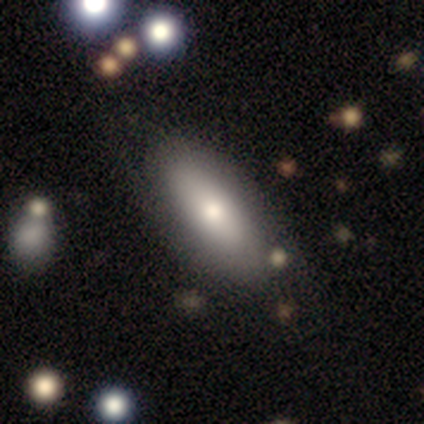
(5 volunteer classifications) Smooth or featured?
  - smooth: 60% *
  - featured or disk: 20%
  - star or artifact: 20%
How rounded?
  - in between: 67% *
  - cigar-shaped: 33%
  - round: 0%
Merging?
  - none: 75% *
  - minor disturbance: 25%
  - major disturbance: 0%
  - merger: 0%